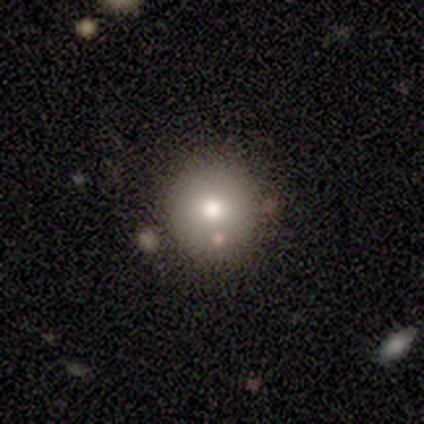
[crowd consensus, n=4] Q: Smooth or featured?
A: smooth (50%); runner-up: featured or disk (25%)
Q: How rounded?
A: round (100%)
Q: Merging?
A: none (100%)